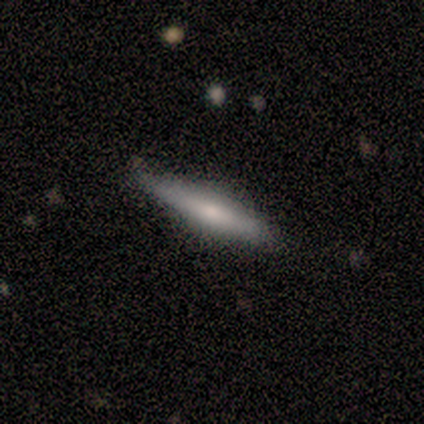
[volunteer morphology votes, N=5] This appears to be a smooth galaxy with no disk features (60%) that is cigar-shaped (67%). Merging: none (80%).